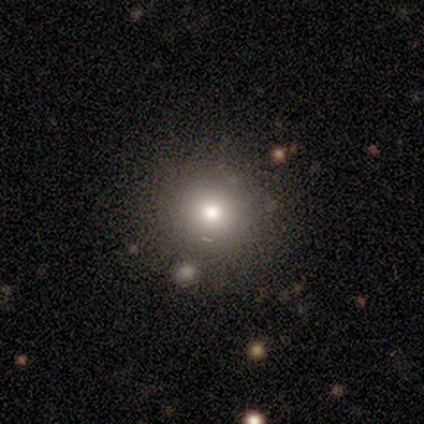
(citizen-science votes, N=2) Overall: smooth (100%). How rounded: round (100%). Merging: none (50%, tied with major disturbance).